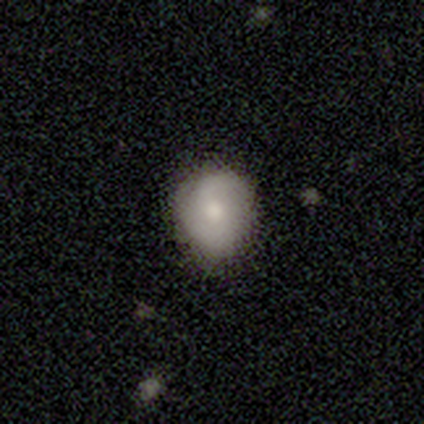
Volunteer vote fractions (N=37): Volunteers were most divided on "smooth or featured": smooth: 62%, featured or disk: 32%, star or artifact: 5%. More confident: merging — none (69%); how rounded — round (65%).